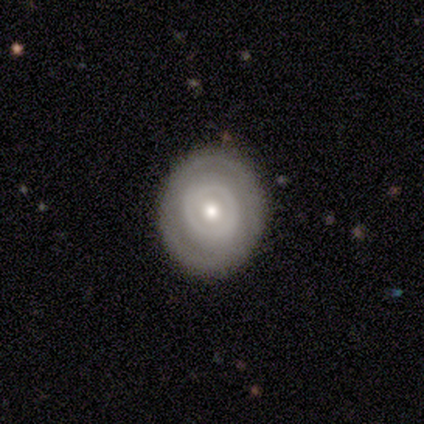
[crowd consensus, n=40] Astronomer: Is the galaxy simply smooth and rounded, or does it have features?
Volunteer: featured or disk — 55% (runner-up: smooth, 45%).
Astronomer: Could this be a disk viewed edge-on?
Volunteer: no — 95%.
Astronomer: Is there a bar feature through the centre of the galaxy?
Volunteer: no — 95%.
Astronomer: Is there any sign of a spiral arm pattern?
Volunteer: no — 81%.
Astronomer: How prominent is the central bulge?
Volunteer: moderate — 67%.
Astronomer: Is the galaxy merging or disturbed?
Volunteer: none — 90%.